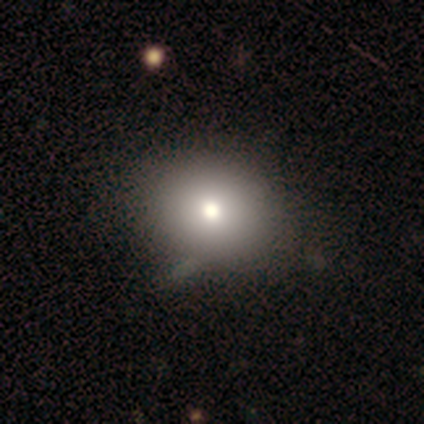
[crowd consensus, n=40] Q: Smooth or featured?
A: smooth (70%); runner-up: featured or disk (18%)
Q: How rounded?
A: round (54%); runner-up: in between (46%)
Q: Merging?
A: none (54%); runner-up: merger (6%)